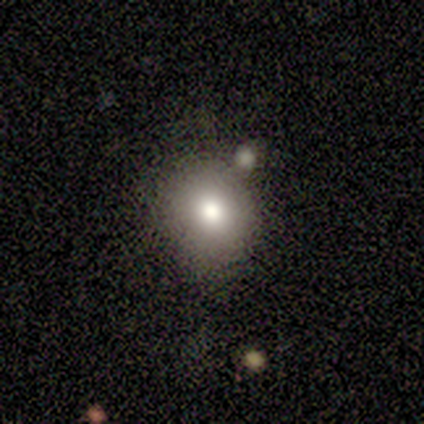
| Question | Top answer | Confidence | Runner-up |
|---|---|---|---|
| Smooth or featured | smooth | 80% | star or artifact (20%) |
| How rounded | round | 100% | — |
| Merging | none | 75% | minor disturbance (25%) |